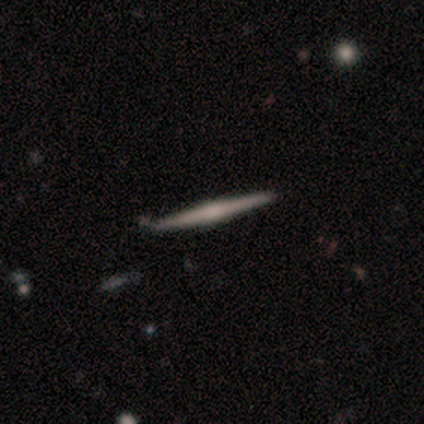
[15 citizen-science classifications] Volunteers were most divided on "smooth or featured": featured or disk: 73%, smooth: 20%, star or artifact: 7%. More confident: edge-on disk — yes (100%); merging — none (79%); edge-on bulge — rounded (73%).